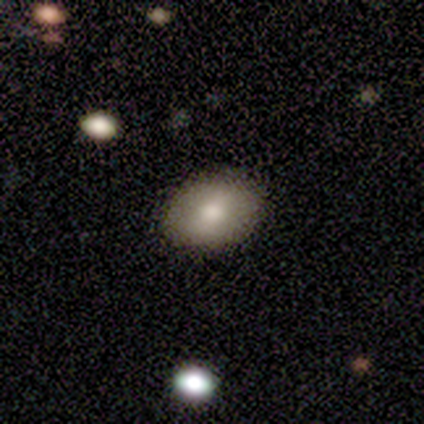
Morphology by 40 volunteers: Overall: smooth (65%; featured or disk 30%). How rounded: in between (81%). Merging: none (89%).